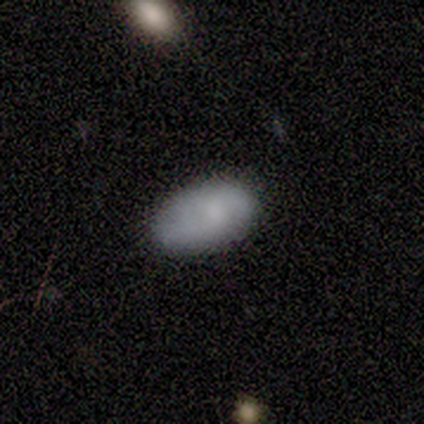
Q: Smooth or featured?
A: smooth (100%)
Q: How rounded?
A: in between (100%)
Q: Merging?
A: none (80%); runner-up: minor disturbance (20%)